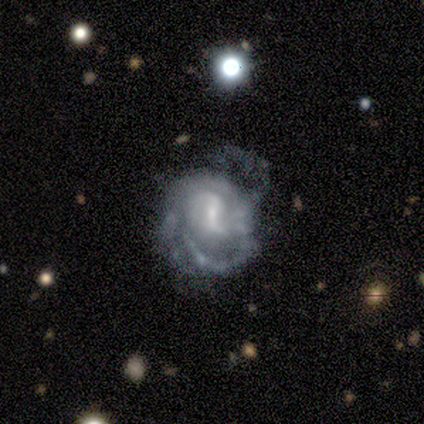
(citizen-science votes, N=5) A featured or disk galaxy (80%) with a weak bar (100%), 2 (50%, tied with can't tell) tight (50%, tied with medium) spiral arms (100%) and a small central bulge (100%). Merging: minor disturbance (40%, tied with major disturbance).